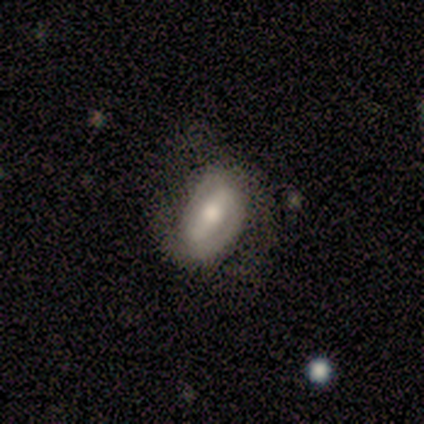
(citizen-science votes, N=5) This is clearly a featured or disk galaxy (100%). It is clearly not viewed edge-on (100%). Bar: clearly strong (100%). Spiral arm pattern: clearly yes (100%). Spiral arm count: clearly 2 (80%). Spiral winding: likely tight (60%). Central bulge: clearly moderate (80%). Merging: clearly none (80%).